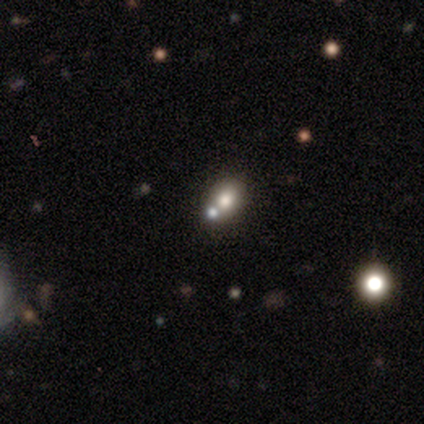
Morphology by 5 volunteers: Overall: smooth (40%, tied with star or artifact). How rounded: round (100%). Merging: none (67%; merger 33%).